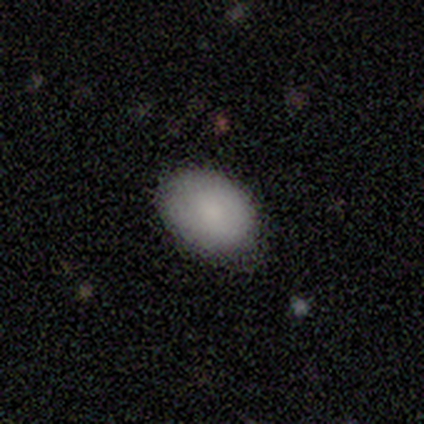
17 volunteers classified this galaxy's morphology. Smooth or featured? smooth (82%)
How rounded? in between (86%)
Merging? none (80%)